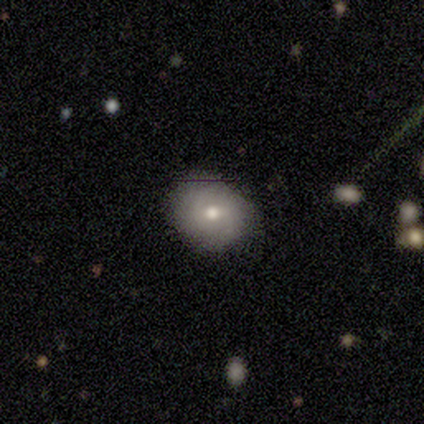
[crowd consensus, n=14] Overall: smooth (57%; featured or disk 36%). How rounded: round (62%; in between 38%). Merging: none (77%).